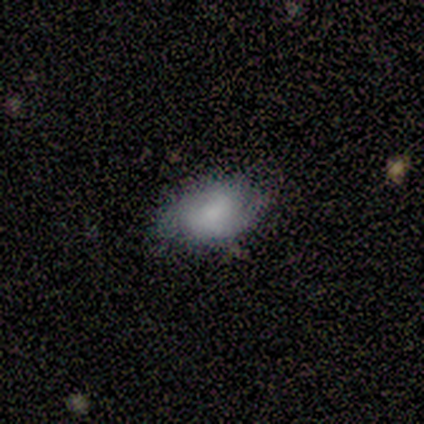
Overall: smooth (80%). How rounded: in between (100%). Merging: none (100%).